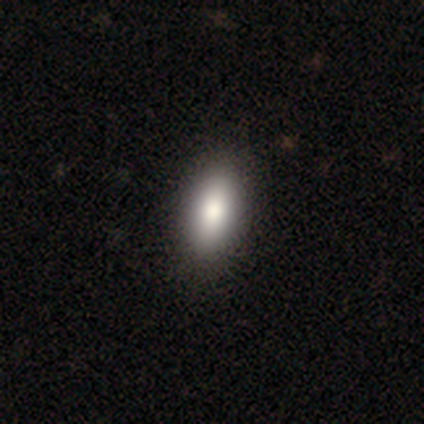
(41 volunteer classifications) Smooth or featured: smooth — 93% (featured or disk — 5%)
How rounded: in between — 82% (cigar-shaped — 13%)
Merging: none — 78% (minor disturbance — 8%)